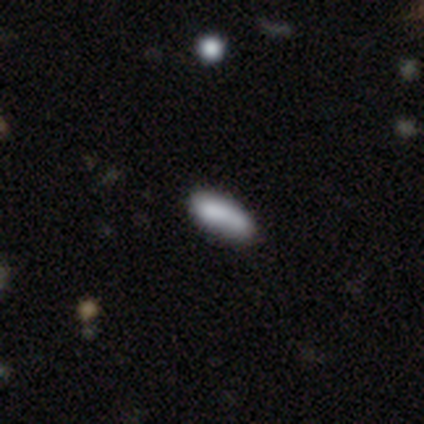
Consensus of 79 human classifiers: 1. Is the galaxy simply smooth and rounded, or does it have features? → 80% smooth, 11% featured or disk, 9% star or artifact.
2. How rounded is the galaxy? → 65% in between, 32% cigar-shaped, 3% round.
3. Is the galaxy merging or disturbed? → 39% none, 11% merger, 10% minor disturbance, 6% major disturbance.